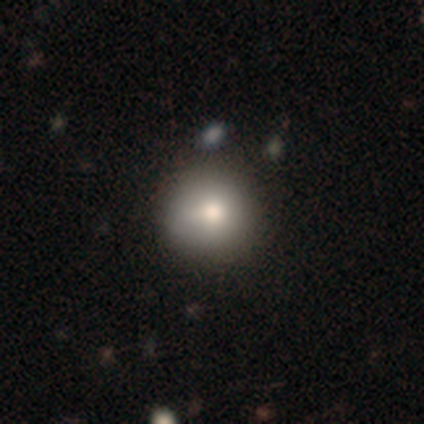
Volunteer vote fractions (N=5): smooth-or-featured: smooth: 80% | star or artifact: 20% | featured or disk: 0%
  how-rounded: round: 100% | in between: 0% | cigar-shaped: 0%
  merging: none: 75% | major disturbance: 25% | minor disturbance: 0% | merger: 0%